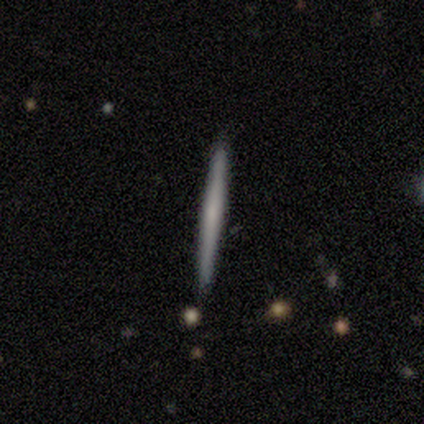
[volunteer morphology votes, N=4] Overall: smooth (50%; featured or disk 25%). How rounded: cigar-shaped (100%). Merging: none (100%).